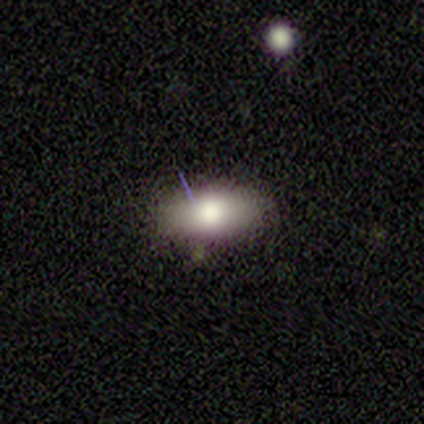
Q: Smooth or featured?
A: smooth (100%)
Q: How rounded?
A: in between (100%)
Q: Merging?
A: none (100%)